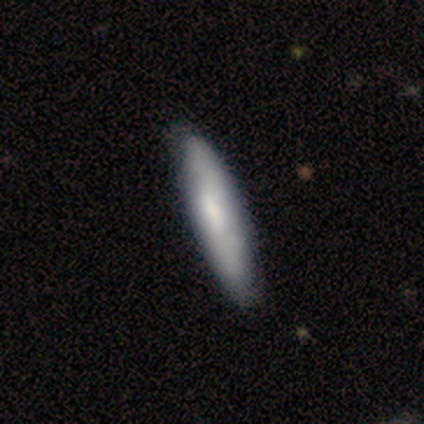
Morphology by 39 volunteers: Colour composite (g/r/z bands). It shows a smooth galaxy with no disk features (56%) that is cigar-shaped (82%). Merging: none (63%).